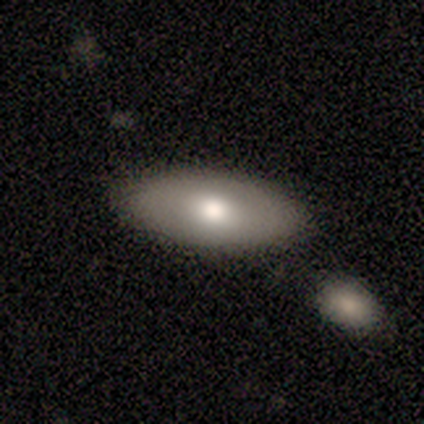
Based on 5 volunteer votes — Smooth or featured?
  - smooth: 80% *
  - star or artifact: 20%
  - featured or disk: 0%
How rounded?
  - in between: 100% *
  - round: 0%
  - cigar-shaped: 0%
Merging?
  - none: 100% *
  - minor disturbance: 0%
  - major disturbance: 0%
  - merger: 0%